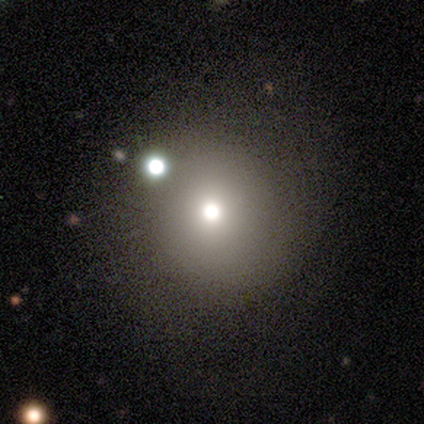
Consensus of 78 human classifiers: Smooth or featured?
  - smooth: 74% *
  - star or artifact: 15%
  - featured or disk: 10%
How rounded?
  - round: 97% *
  - in between: 3%
  - cigar-shaped: 0%
Merging?
  - none: 41% *
  - merger: 9%
  - minor disturbance: 8%
  - major disturbance: 3%